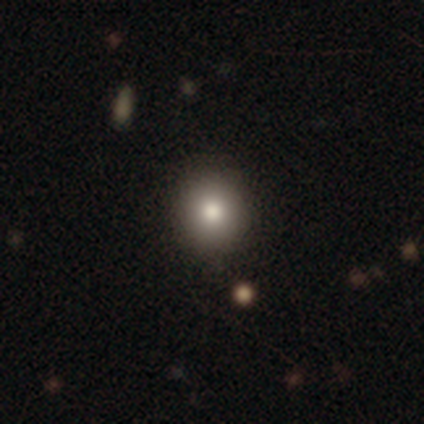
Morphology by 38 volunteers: This appears to be a smooth galaxy with no disk features (92%) that is round (97%). Merging: none (92%).